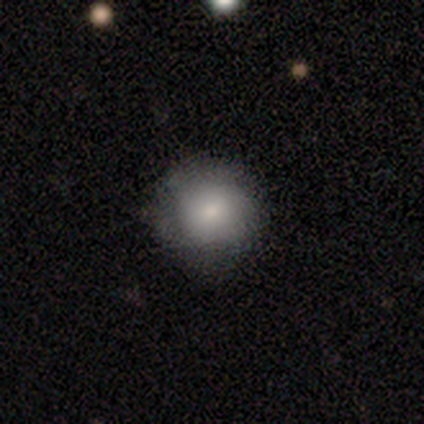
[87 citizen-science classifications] Smooth or featured? 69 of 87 (79%) said smooth. How rounded? 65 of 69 (94%) said round. Merging? 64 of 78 (82%) said none.